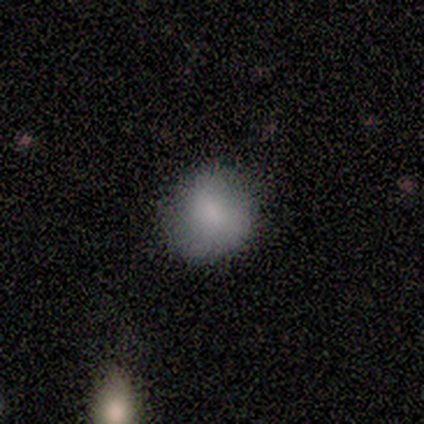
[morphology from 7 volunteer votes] Volunteers were most divided on "smooth or featured": smooth: 71%, featured or disk: 14%, star or artifact: 14%. More confident: merging — none (83%); how rounded — round (80%).